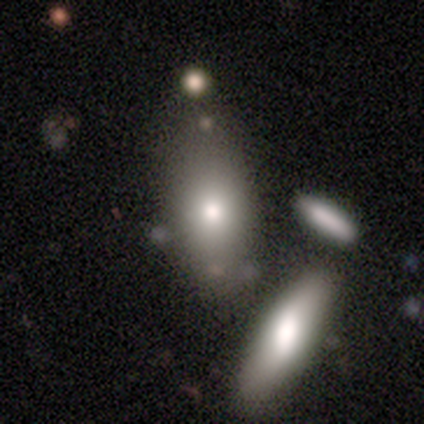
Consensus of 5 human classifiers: A smooth galaxy with no disk features (60%) that is in between round and cigar-shaped (100%).

Vote fractions:
- Smooth or featured? smooth: 60% / featured or disk: 20% / star or artifact: 20%
- How rounded? in between: 100% / round: 0% / cigar-shaped: 0%
- Merging? none: 75% / merger: 25% / minor disturbance: 0% / major disturbance: 0%